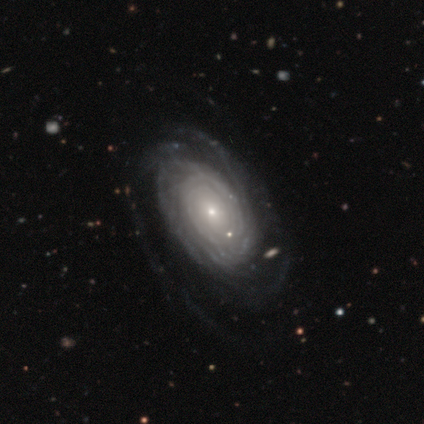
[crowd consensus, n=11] Volunteers were most divided on "merging": none: 44%, major disturbance: 33%, minor disturbance: 22%, merger: 0%. More confident: edge-on disk — no (100%); spiral arms — yes (89%); smooth or featured — featured or disk (82%); bulge size — small (67%); spiral winding — tight (62%); bar — no (56%); spiral arm count — can't tell (50%).